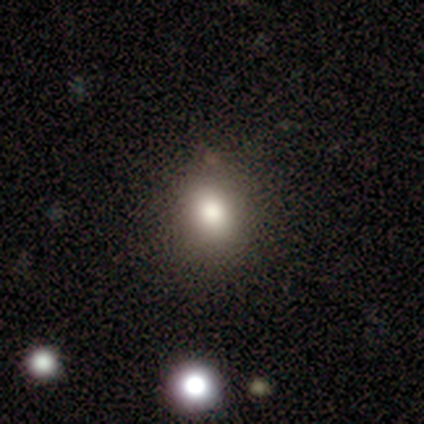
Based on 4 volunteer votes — Volunteers were most divided on "smooth or featured" (2-way tie): smooth: 50%, star or artifact: 50%, featured or disk: 0%; "how rounded" (2-way tie): round: 50%, in between: 50%, cigar-shaped: 0%. More confident: merging — none (100%).